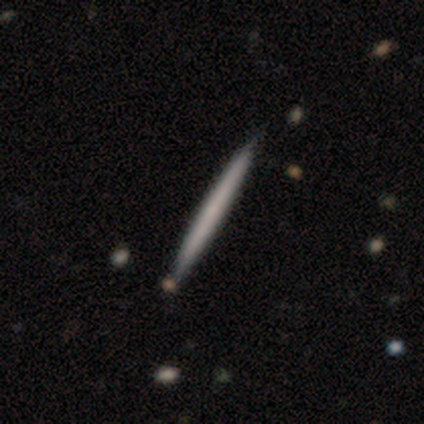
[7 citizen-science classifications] This is possibly a featured or disk galaxy (57%). It is clearly viewed edge-on (100%). Edge-on bulge: clearly none (100%). Merging: clearly none (100%).